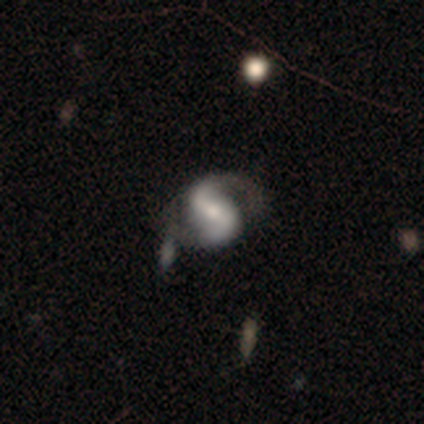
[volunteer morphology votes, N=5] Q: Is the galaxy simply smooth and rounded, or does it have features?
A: featured or disk — 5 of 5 (100%).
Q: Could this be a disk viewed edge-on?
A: no — 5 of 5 (100%).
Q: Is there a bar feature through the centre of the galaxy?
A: weak — 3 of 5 (60%).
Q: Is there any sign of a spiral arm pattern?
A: yes — 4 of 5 (80%).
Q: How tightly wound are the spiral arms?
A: medium — 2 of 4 (50%).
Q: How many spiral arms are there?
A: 2 — 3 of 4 (75%).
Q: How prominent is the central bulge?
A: moderate — 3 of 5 (60%).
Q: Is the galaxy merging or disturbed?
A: none — 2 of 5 (40%, tied with minor disturbance).